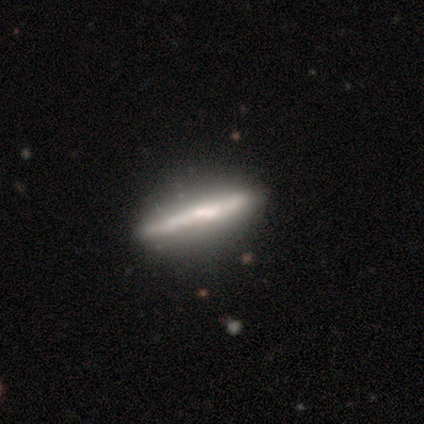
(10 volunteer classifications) This appears to be a featured or disk galaxy (80%) viewed edge-on (88%) with a rounded central bulge (57%). Merging: none (80%).